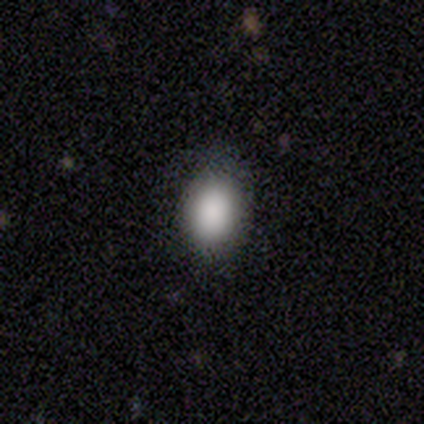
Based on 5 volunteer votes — A smooth galaxy with no disk features (100%) that is in between round and cigar-shaped (100%). Merging: none (100%).